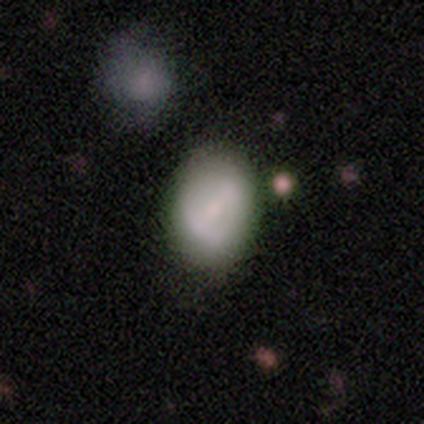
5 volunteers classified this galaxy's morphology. Smooth or featured?
  - smooth: 80% *
  - featured or disk: 20%
  - star or artifact: 0%
How rounded?
  - round: 50% * (tied)
  - in between: 50% * (tied)
  - cigar-shaped: 0%
Merging?
  - none: 60% *
  - minor disturbance: 40%
  - major disturbance: 0%
  - merger: 0%